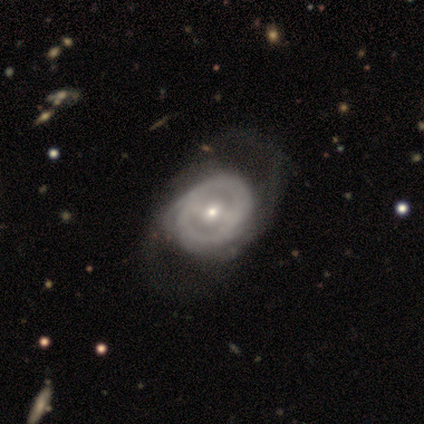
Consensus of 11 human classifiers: smooth-or-featured: featured or disk: 91% | smooth: 9% | star or artifact: 0%
  disk-edge-on: no: 100% | yes: 0%
    bar: no: 40% | strong: 30% | weak: 30%
    has-spiral-arms: yes: 70% | no: 30%
      spiral-winding: medium: 57% | tight: 29% | loose: 14%
      spiral-arm-count: 2: 29% (tied) | can't tell: 29% (tied) | 1: 14% | 3: 14% | 4: 14% | more than 4: 0%
    bulge-size: small: 60% | moderate: 30% | none: 10% | dominant: 0% | large: 0%
  merging: none: 36% | major disturbance: 18% | minor disturbance: 0% | merger: 0%